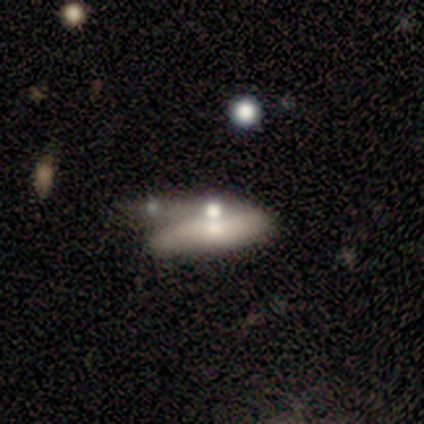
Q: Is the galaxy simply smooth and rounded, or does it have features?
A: smooth — 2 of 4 (50%, tied with featured or disk).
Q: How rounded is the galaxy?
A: in between — 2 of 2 (100%).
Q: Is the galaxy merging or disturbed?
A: major disturbance — 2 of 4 (50%).